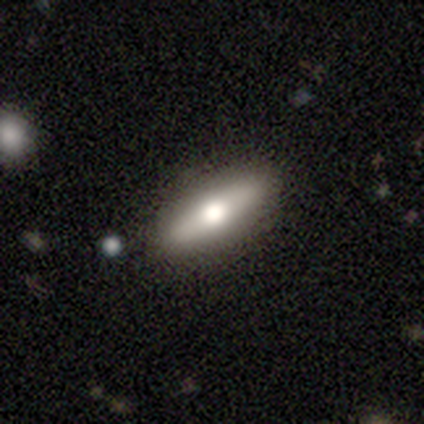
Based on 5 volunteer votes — This is likely a featured or disk galaxy (60%). It is likely viewed edge-on (67%). Edge-on bulge: clearly rounded (100%). Merging: clearly none (100%).